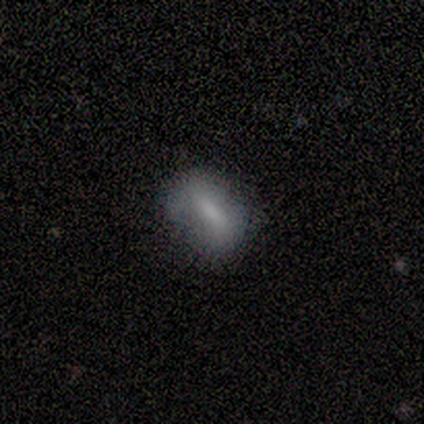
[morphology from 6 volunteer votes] Q: Smooth or featured?
A: smooth (67%); runner-up: featured or disk (17%)
Q: How rounded?
A: in between (100%)
Q: Merging?
A: minor disturbance (80%); runner-up: none (20%)